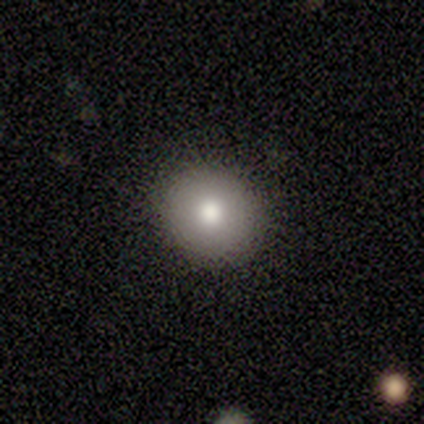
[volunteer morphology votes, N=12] This is clearly a smooth galaxy (92%). How rounded: clearly round (91%). Merging: clearly none (91%).